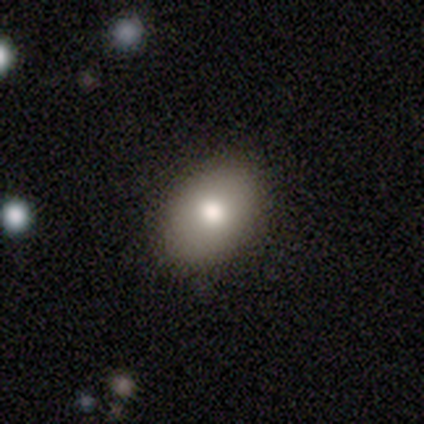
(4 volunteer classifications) smooth-or-featured: smooth: 75% | featured or disk: 25% | star or artifact: 0%
  how-rounded: in between: 100% | round: 0% | cigar-shaped: 0%
  merging: none: 100% | minor disturbance: 0% | major disturbance: 0% | merger: 0%